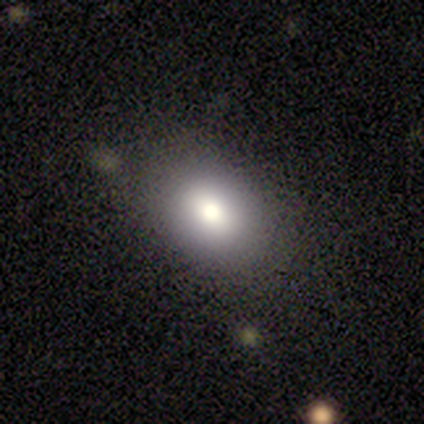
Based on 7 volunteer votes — Q: Smooth or featured?
A: smooth (71%); runner-up: star or artifact (29%)
Q: How rounded?
A: in between (100%)
Q: Merging?
A: none (80%); runner-up: minor disturbance (20%)